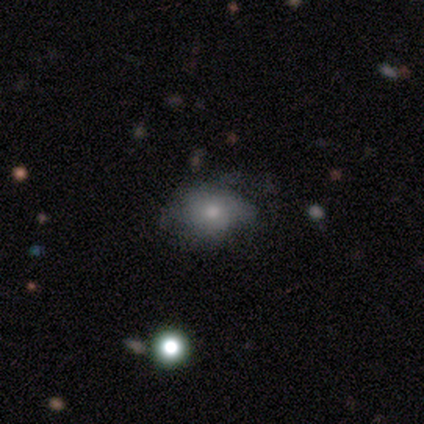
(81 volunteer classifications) Smooth or featured? smooth (60%)
How rounded? in between (59%)
Merging? none (49%)